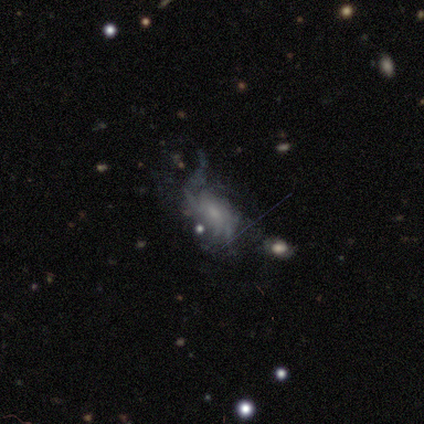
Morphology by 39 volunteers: Volunteers were most divided on "bulge size": moderate: 39%, none: 30%, small: 26%, large: 4%, dominant: 0%. Remaining: edge-on disk — no (100%); spiral arms — yes (83%); bar — no (65%); smooth or featured — featured or disk (59%); spiral arm count — can't tell (58%); spiral winding — loose (47%); merging — major disturbance (46%).